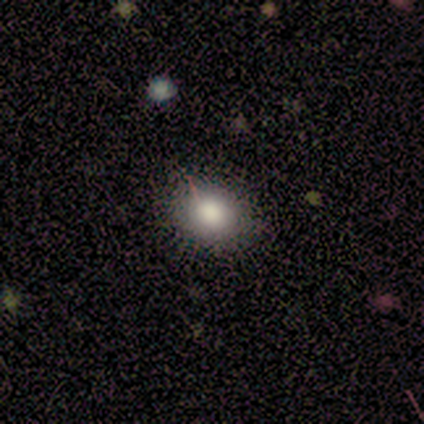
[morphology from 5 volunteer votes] Overall: smooth (80%). How rounded: round (100%). Merging: none (100%).